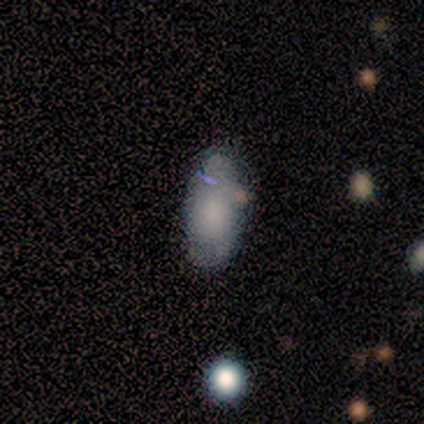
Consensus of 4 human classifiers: A smooth galaxy with no disk features (50%, tied with featured or disk) that is in between round and cigar-shaped (100%). Merging: none (75%).